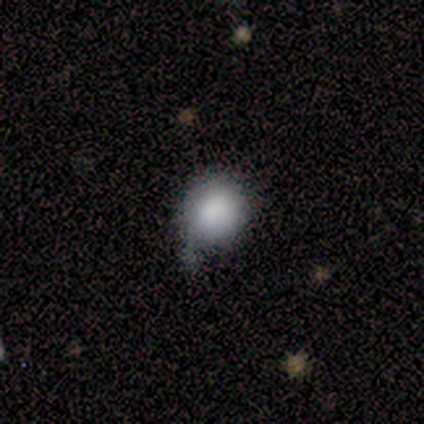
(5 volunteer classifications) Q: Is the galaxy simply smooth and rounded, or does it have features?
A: smooth — 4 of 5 (80%).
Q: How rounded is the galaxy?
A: round — 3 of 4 (75%).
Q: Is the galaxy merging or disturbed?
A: minor disturbance — 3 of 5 (60%).